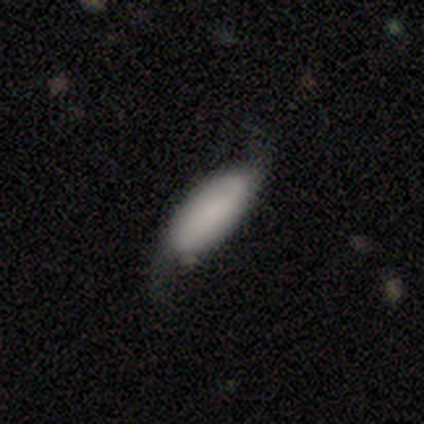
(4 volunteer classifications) smooth 75%, featured or disk 25%, star or artifact 0%. Down the decision tree: how rounded — in between (100%); merging — major disturbance (50%).